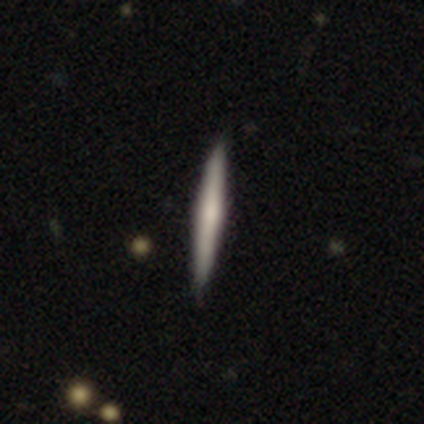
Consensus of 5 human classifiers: Q: Smooth or featured?
A: smooth (60%); runner-up: featured or disk (40%)
Q: How rounded?
A: cigar-shaped (100%)
Q: Merging?
A: none (100%)